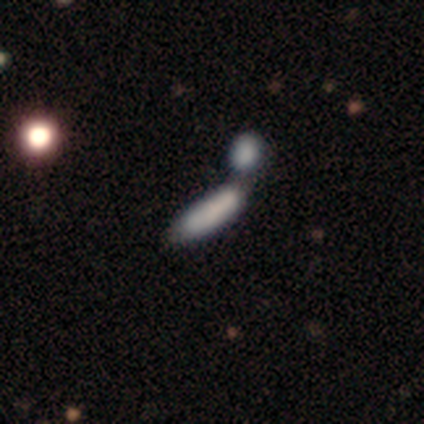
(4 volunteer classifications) Smooth or featured? 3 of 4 (75%) said smooth. How rounded? 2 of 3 (67%) said in between. Merging? 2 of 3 (67%) said merger.